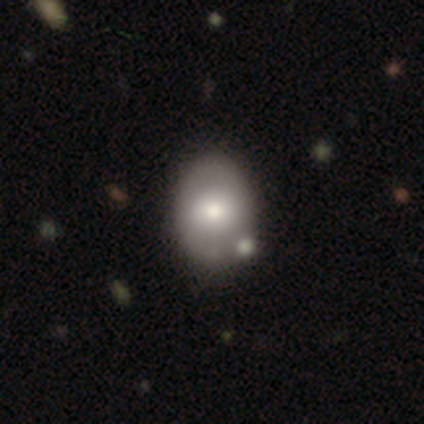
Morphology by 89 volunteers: Smooth or featured?
  - smooth: 65% *
  - featured or disk: 25%
  - star or artifact: 10%
How rounded?
  - in between: 64% *
  - round: 36%
  - cigar-shaped: 0%
Merging?
  - none: 72% *
  - minor disturbance: 14%
  - merger: 10%
  - major disturbance: 4%